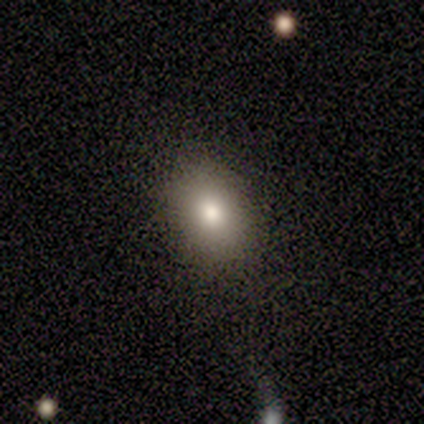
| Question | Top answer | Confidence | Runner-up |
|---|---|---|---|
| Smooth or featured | smooth | 60% | star or artifact (40%) |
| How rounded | in between | 100% | — |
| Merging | none | 100% | — |